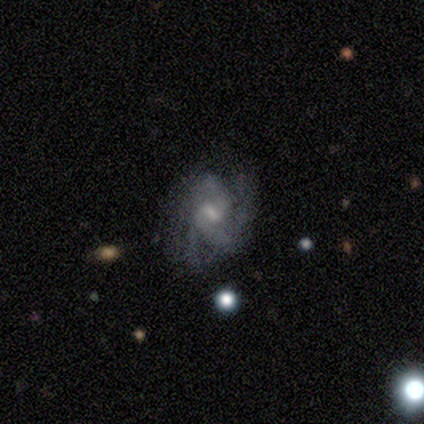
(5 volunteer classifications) Q: Smooth or featured?
A: featured or disk (80%); runner-up: star or artifact (20%)
Q: Edge-on disk?
A: no (100%)
Q: Bar?
A: weak (100%)
Q: Spiral arms?
A: yes (75%); runner-up: no (25%)
Q: Spiral winding?
A: tight (67%); runner-up: loose (33%)
Q: Spiral arm count?
A: 2 (33%); tied with: 3 (33%); can't tell (33%)
Q: Bulge size?
A: small (50%); runner-up: moderate (25%)
Q: Merging?
A: none (100%)